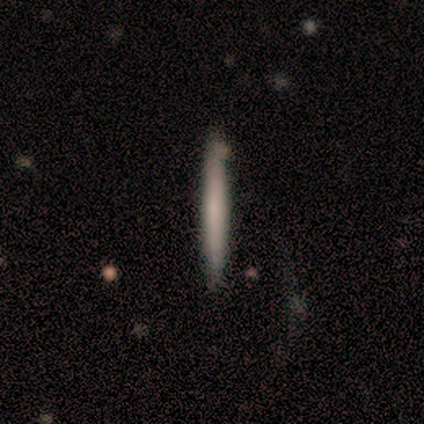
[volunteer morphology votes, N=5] smooth-or-featured: smooth: 80% | featured or disk: 20% | star or artifact: 0%
  how-rounded: cigar-shaped: 100% | round: 0% | in between: 0%
  merging: none: 80% | minor disturbance: 20% | major disturbance: 0% | merger: 0%